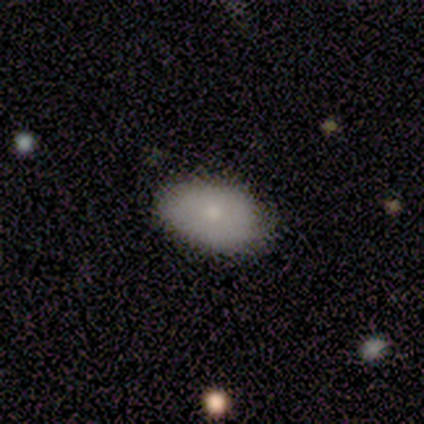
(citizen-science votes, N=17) Morphology: type=smooth (88%); roundness=in between (100%); merging=none (82%).